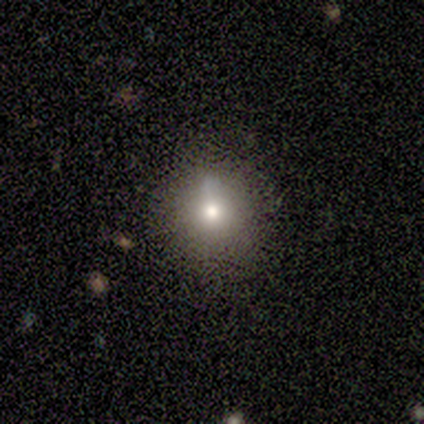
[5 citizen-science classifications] Volunteers were most divided on "smooth or featured": star or artifact: 80%, smooth: 20%, featured or disk: 0%.